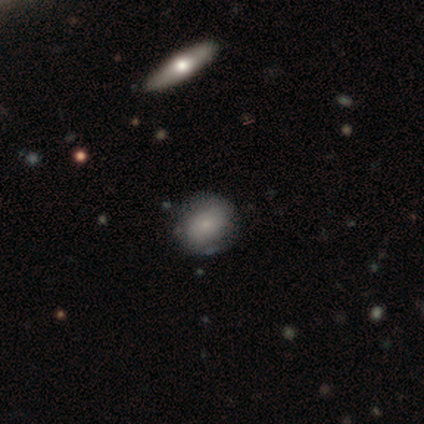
smooth-or-featured: smooth: 100% | featured or disk: 0% | star or artifact: 0%
  how-rounded: round: 60% | in between: 40% | cigar-shaped: 0%
  merging: none: 80% | minor disturbance: 20% | major disturbance: 0% | merger: 0%